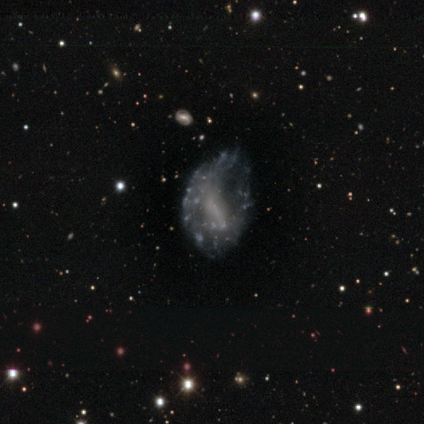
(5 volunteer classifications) smooth-or-featured: featured or disk: 80% | smooth: 20% | star or artifact: 0%
  disk-edge-on: no: 100% | yes: 0%
    bar: strong: 100% | weak: 0% | no: 0%
    has-spiral-arms: no: 75% | yes: 25%
    bulge-size: small: 50% (tied) | none: 50% (tied) | dominant: 0% | large: 0% | moderate: 0%
  merging: major disturbance: 60% | none: 40% | minor disturbance: 0% | merger: 0%